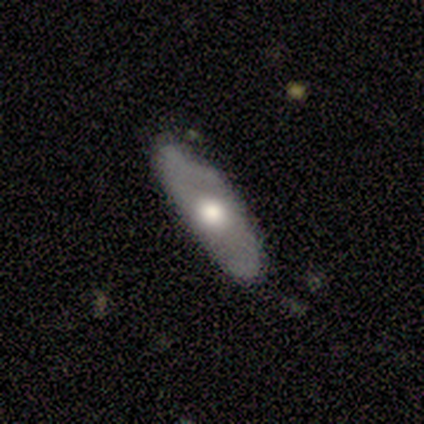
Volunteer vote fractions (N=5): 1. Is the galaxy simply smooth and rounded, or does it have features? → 60% featured or disk, 40% smooth, 0% star or artifact.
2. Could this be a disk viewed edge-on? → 100% no, 0% yes.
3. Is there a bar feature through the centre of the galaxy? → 100% no, 0% strong, 0% weak.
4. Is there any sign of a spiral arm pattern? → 67% no, 33% yes.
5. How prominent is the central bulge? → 100% moderate, 0% dominant, 0% large, 0% small, 0% none.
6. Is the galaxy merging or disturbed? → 60% none, 40% minor disturbance, 0% major disturbance, 0% merger.